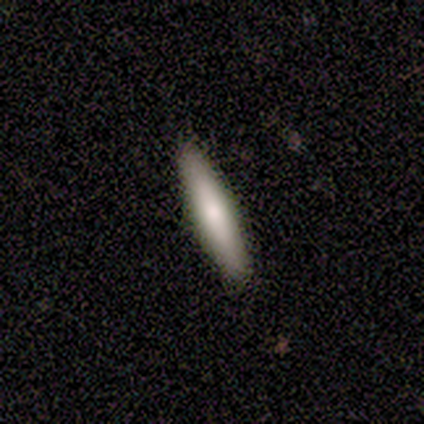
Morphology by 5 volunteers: This is likely a smooth galaxy (60%). How rounded: clearly cigar-shaped (100%). Merging: clearly none (100%).